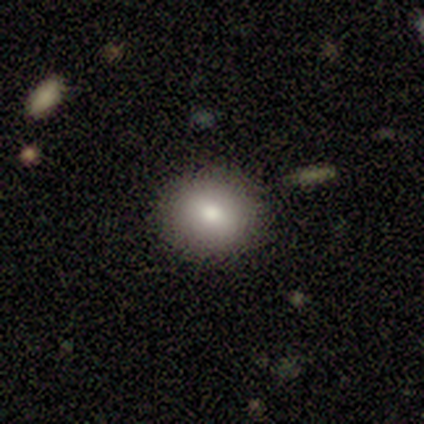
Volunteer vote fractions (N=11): This appears to be a smooth galaxy with no disk features (82%) that is round (78%). Merging: none (90%).